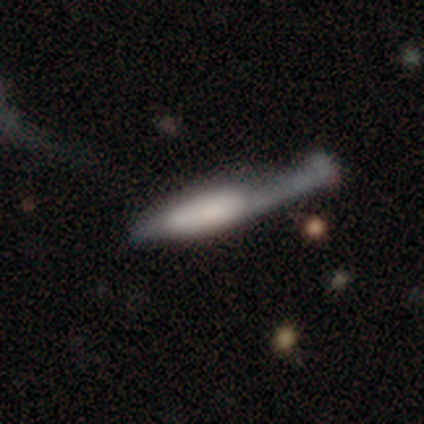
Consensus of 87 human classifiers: smooth 56%, featured or disk 39%, star or artifact 5%. Down the decision tree: how rounded — cigar-shaped (76%); merging — major disturbance (41%).